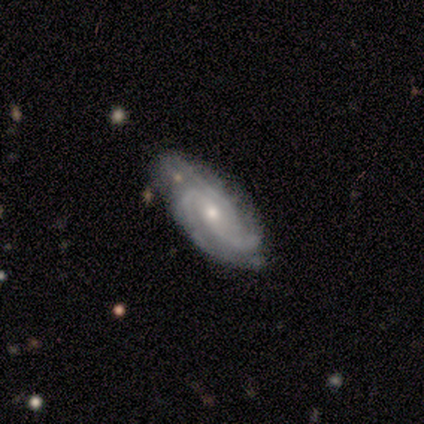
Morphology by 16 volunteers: Overall: featured or disk (69%). Edge-on disk: no (100%). Bar: no (91%). Spiral arms: yes (100%). Spiral arm count: 3 (55%; 2 27%). Spiral winding: tight (55%; medium 36%). Bulge size: moderate (64%; small 36%). Merging: none (80%).